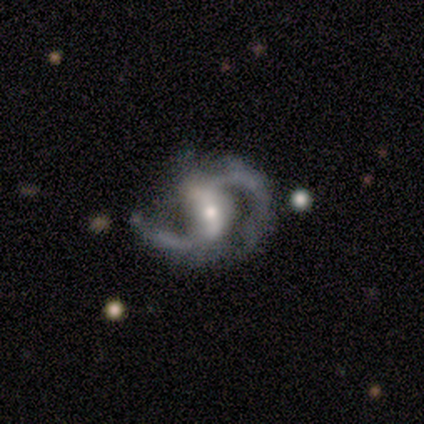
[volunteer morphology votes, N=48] Smooth or featured? 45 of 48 (94%) said featured or disk. Edge-on disk? 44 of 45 (98%) said no. Bar? 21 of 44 (48%) said strong. Spiral arms? 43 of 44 (98%) said yes. Spiral winding? 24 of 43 (56%) said medium. Spiral arm count? 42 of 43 (98%) said 2. Bulge size? 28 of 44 (64%) said moderate. Merging? 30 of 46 (65%) said none.